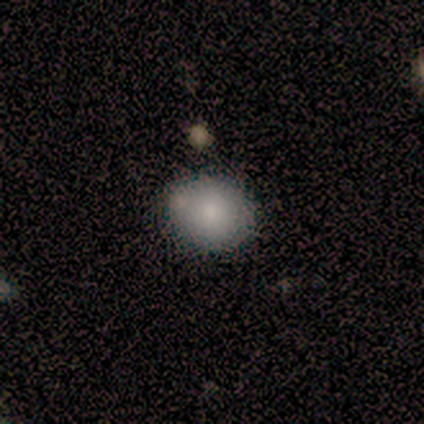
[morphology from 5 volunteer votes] Q: Smooth or featured?
A: smooth (80%); runner-up: star or artifact (20%)
Q: How rounded?
A: round (75%); runner-up: in between (25%)
Q: Merging?
A: none (75%); runner-up: minor disturbance (25%)